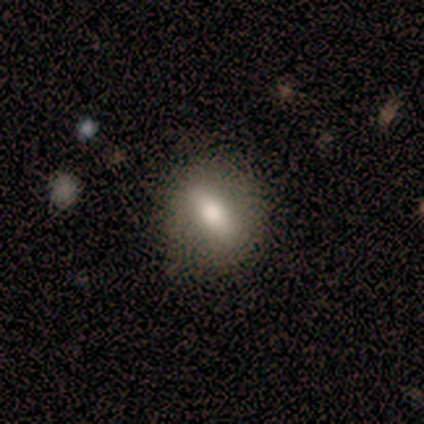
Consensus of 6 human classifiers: Q: Smooth or featured?
A: smooth (83%); runner-up: featured or disk (17%)
Q: How rounded?
A: in between (80%); runner-up: cigar-shaped (20%)
Q: Merging?
A: none (83%); runner-up: minor disturbance (17%)